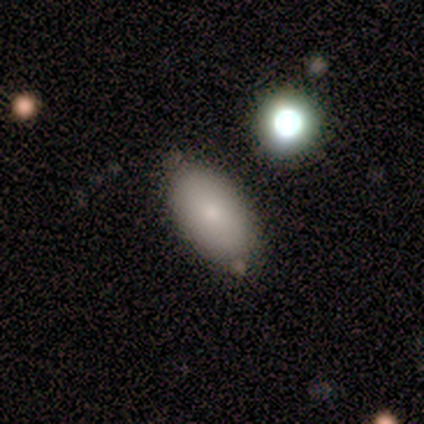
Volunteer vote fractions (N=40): A smooth galaxy with no disk features (95%) that is in between round and cigar-shaped (92%).

Vote fractions:
- Smooth or featured? smooth: 95% / featured or disk: 5% / star or artifact: 0%
- How rounded? in between: 92% / cigar-shaped: 5% / round: 3%
- Merging? none: 60% / minor disturbance: 18% / major disturbance: 5% / merger: 5%